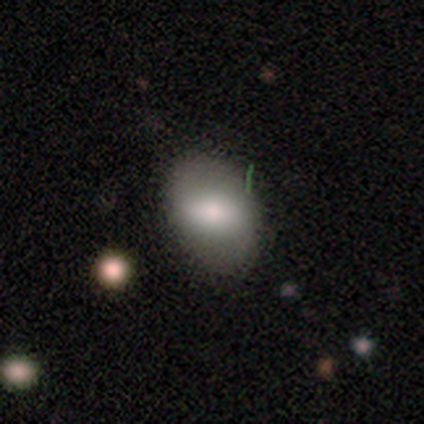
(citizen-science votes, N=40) Smooth or featured? smooth (52%)
How rounded? in between (95%)
Merging? none (39%)